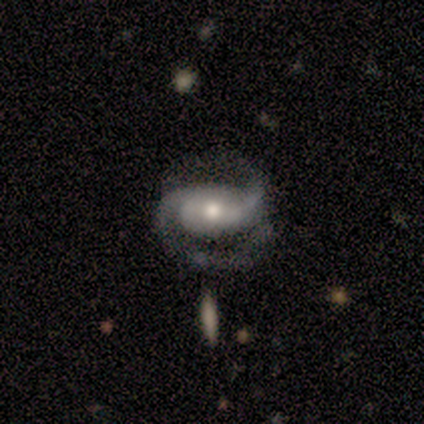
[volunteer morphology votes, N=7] Smooth or featured?
  - featured or disk: 86% *
  - smooth: 14%
  - star or artifact: 0%
Edge-on disk?
  - no: 83% *
  - yes: 17%
Bar?
  - weak: 60% *
  - strong: 20%
  - no: 20%
Spiral arms?
  - yes: 80% *
  - no: 20%
Spiral winding?
  - tight: 50% * (tied)
  - medium: 50% * (tied)
  - loose: 0%
Spiral arm count?
  - 2: 75% *
  - can't tell: 25%
  - 1: 0%
  - 3: 0%
  - 4: 0%
  - more than 4: 0%
Bulge size?
  - small: 60% *
  - large: 20%
  - moderate: 20%
  - dominant: 0%
  - none: 0%
Merging?
  - none: 57% *
  - minor disturbance: 14%
  - major disturbance: 14%
  - merger: 14%